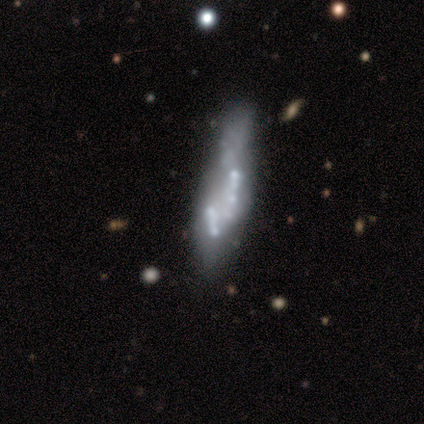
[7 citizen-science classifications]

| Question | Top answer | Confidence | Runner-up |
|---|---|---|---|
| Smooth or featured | featured or disk | 71% | smooth (14%) |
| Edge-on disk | no | 80% | yes (20%) |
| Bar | no | 75% | weak (25%) |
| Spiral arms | no | 75% | yes (25%) |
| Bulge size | none | 100% | — |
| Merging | major disturbance | 50% | none (33%) |